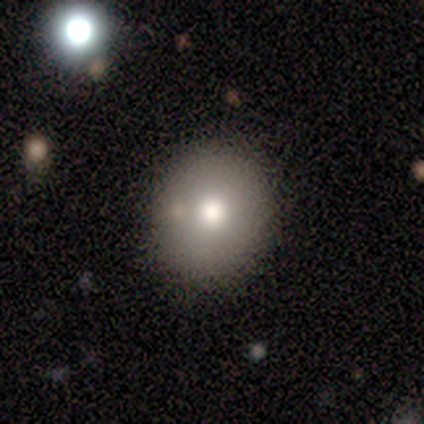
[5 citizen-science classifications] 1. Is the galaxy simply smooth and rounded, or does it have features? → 100% smooth, 0% featured or disk, 0% star or artifact.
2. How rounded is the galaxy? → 60% round, 40% in between, 0% cigar-shaped.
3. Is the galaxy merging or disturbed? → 100% none, 0% minor disturbance, 0% major disturbance, 0% merger.